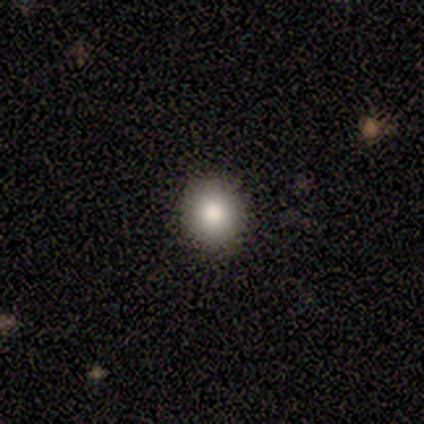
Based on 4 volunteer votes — smooth_or_featured: smooth (p=0.75) [alt: featured or disk p=0.25]
how_rounded: round (p=1.00)
merging: none (p=1.00)